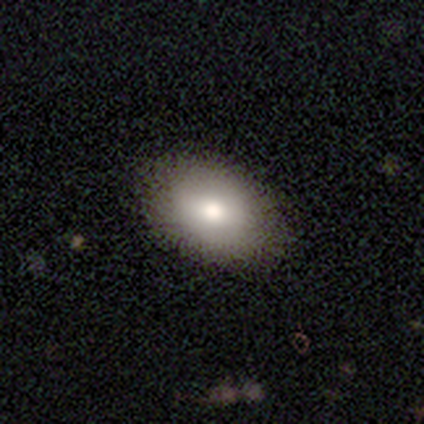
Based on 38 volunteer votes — Smooth or featured?
  - smooth: 79% *
  - star or artifact: 13%
  - featured or disk: 8%
How rounded?
  - in between: 93% *
  - round: 7%
  - cigar-shaped: 0%
Merging?
  - none: 55% *
  - minor disturbance: 6%
  - major disturbance: 0%
  - merger: 0%